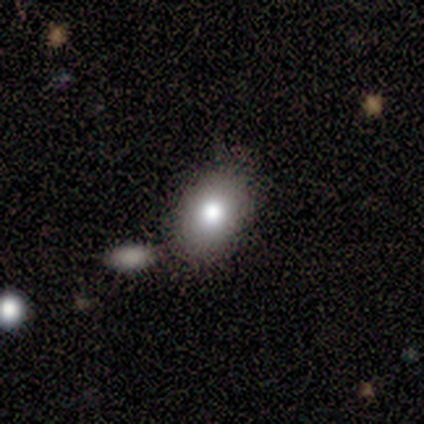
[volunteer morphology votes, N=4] Overall: smooth (75%). How rounded: in between (100%). Merging: none (100%).